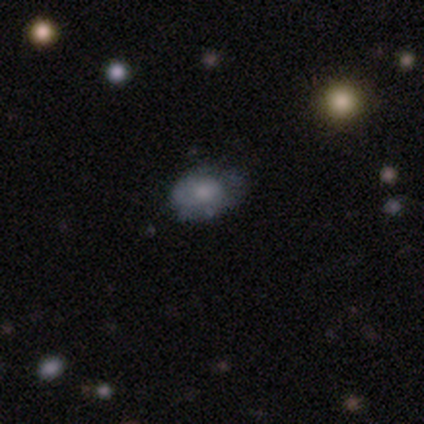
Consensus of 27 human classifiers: This appears to be a smooth galaxy with no disk features (59%) that is in between round and cigar-shaped (81%). Merging: none (71%).